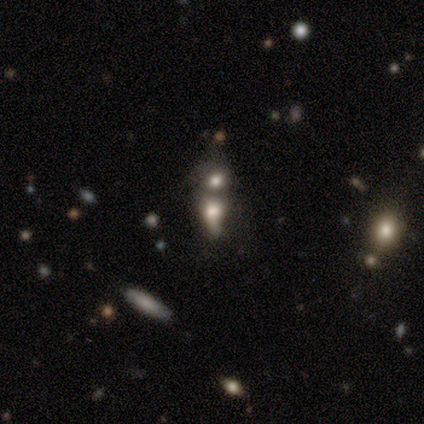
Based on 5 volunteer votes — Morphology: type=featured or disk (40%, tied with star or artifact); edge-on=yes (50%, tied with no); edge-on bulge=boxy (100%); merging=none (33%, tied with minor disturbance and merger).